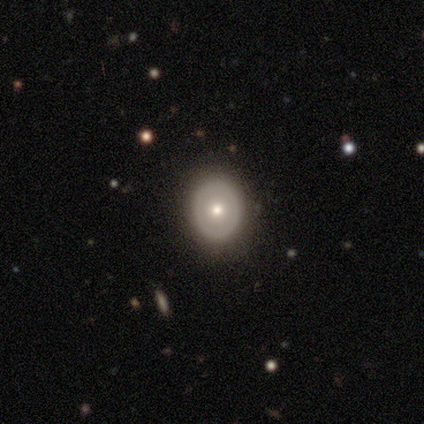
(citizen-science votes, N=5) Smooth or featured: featured or disk — 40% (tied with star or artifact — 40%)
Edge-on disk: no — 100%
Bar: no — 100%
Spiral arms: no — 100%
Bulge size: small — 100%
Merging: none — 100%